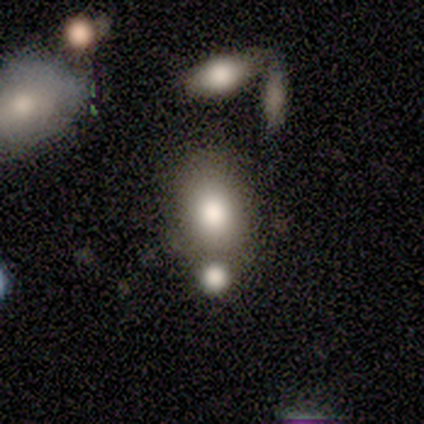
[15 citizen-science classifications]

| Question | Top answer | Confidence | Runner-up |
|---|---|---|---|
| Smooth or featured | smooth | 73% | featured or disk (27%) |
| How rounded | in between | 91% | round (9%) |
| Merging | none | 53% | minor disturbance (27%) |